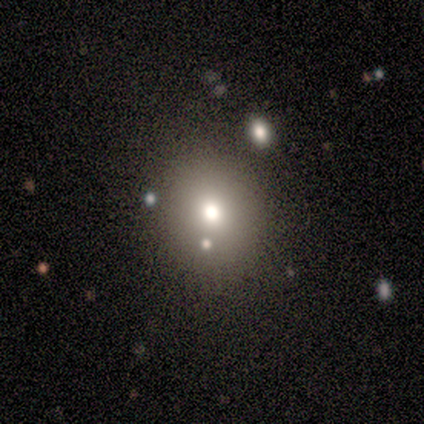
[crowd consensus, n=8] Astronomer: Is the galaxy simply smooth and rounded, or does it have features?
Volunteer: smooth — 62%.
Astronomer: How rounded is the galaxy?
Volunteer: round — 80%.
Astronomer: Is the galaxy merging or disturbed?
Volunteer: none — 50% (runner-up: merger, 33%).